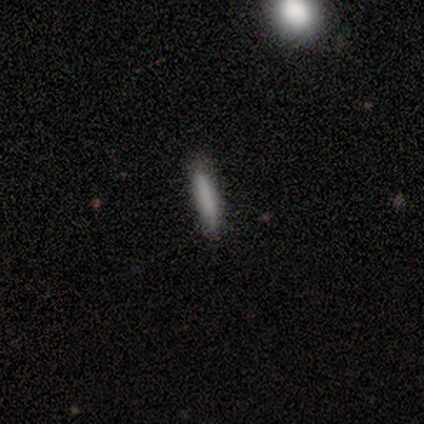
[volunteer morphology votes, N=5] smooth 100%, featured or disk 0%, star or artifact 0%. Down the decision tree: how rounded — cigar-shaped (80%); merging — minor disturbance (60%).